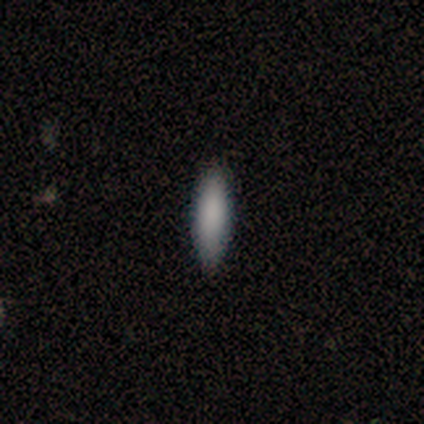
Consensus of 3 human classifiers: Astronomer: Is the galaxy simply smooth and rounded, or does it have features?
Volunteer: smooth — 67%.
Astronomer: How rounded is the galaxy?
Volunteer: cigar-shaped — 100%.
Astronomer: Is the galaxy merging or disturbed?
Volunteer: none — 100%.